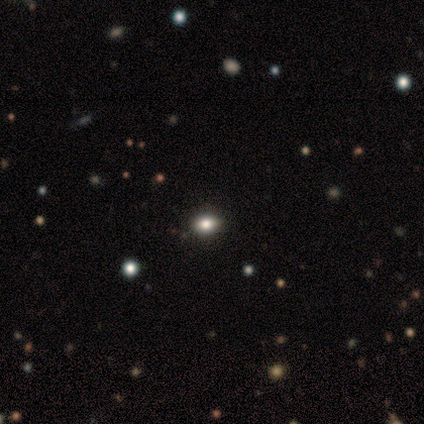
This is possibly a smooth galaxy (50%, tied with star or artifact). How rounded: likely in between (75%). Merging: clearly none (100%).